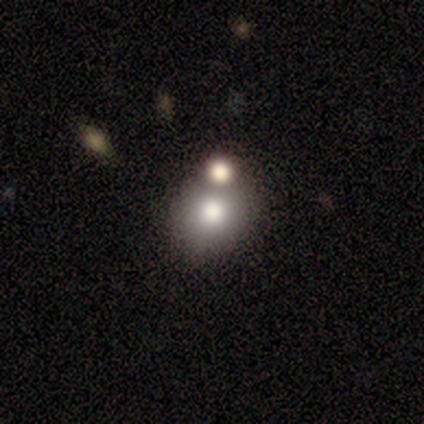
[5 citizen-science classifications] A smooth galaxy with no disk features (60%) that is round (100%).

Vote fractions:
- Smooth or featured? smooth: 60% / featured or disk: 20% / star or artifact: 20%
- How rounded? round: 100% / in between: 0% / cigar-shaped: 0%
- Merging? none: 50% (tied) / merger: 50% (tied) / minor disturbance: 0% / major disturbance: 0%